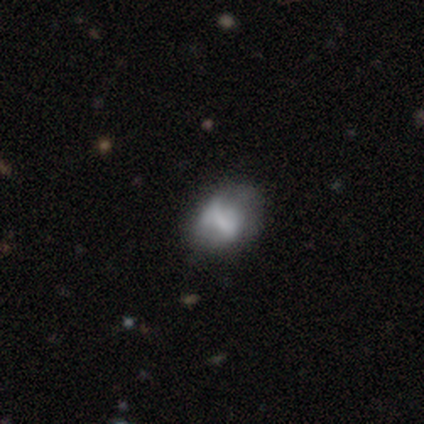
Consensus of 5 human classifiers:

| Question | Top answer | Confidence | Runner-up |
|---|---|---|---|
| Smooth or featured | smooth | 80% | star or artifact (20%) |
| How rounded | in between | 100% | — |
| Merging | none | 75% | minor disturbance (25%) |